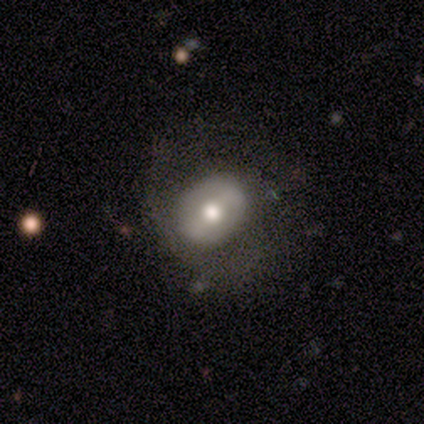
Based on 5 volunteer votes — Smooth or featured: featured or disk — 80% (star or artifact — 20%)
Edge-on disk: no — 100%
Bar: no — 75% (strong — 25%)
Spiral arms: no — 100%
Bulge size: moderate — 75% (small — 25%)
Merging: minor disturbance — 50% (none — 25%)